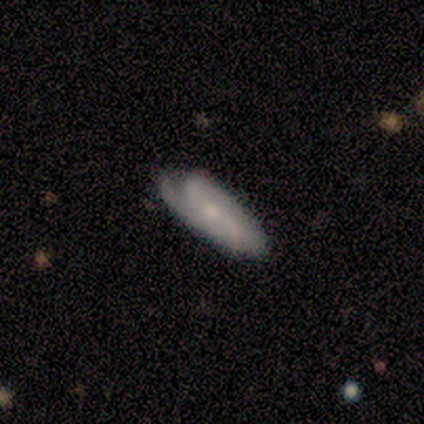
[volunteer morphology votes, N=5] Smooth or featured?
  - featured or disk: 60% *
  - smooth: 40%
  - star or artifact: 0%
Edge-on disk?
  - no: 67% *
  - yes: 33%
Bar?
  - strong: 50% * (tied)
  - no: 50% * (tied)
  - weak: 0%
Spiral arms?
  - yes: 100% *
  - no: 0%
Spiral winding?
  - tight: 50% * (tied)
  - medium: 50% * (tied)
  - loose: 0%
Spiral arm count?
  - 4: 50% * (tied)
  - can't tell: 50% * (tied)
  - 1: 0%
  - 2: 0%
  - 3: 0%
  - more than 4: 0%
Bulge size?
  - small: 100% *
  - dominant: 0%
  - large: 0%
  - moderate: 0%
  - none: 0%
Merging?
  - none: 60% *
  - minor disturbance: 40%
  - major disturbance: 0%
  - merger: 0%